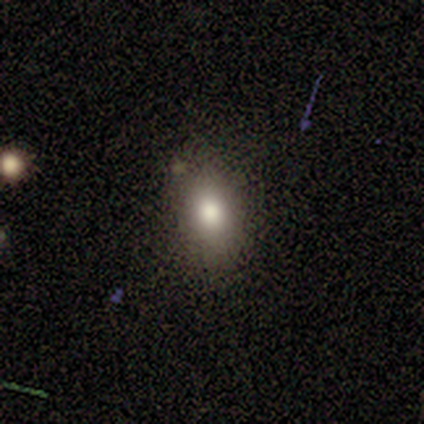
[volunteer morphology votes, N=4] A smooth galaxy with no disk features (75%) that is in between round and cigar-shaped (67%). Merging: none (67%).